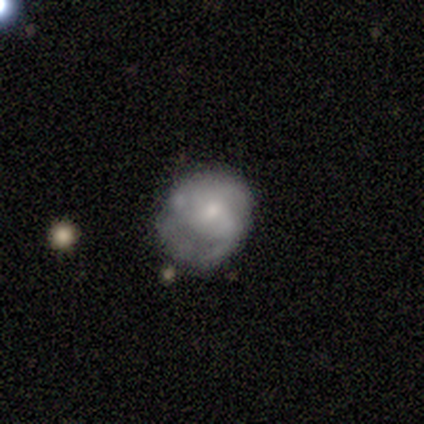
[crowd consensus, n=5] Smooth or featured? 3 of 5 (60%) said featured or disk. Edge-on disk? 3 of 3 (100%) said no. Bar? 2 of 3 (67%) said no. Spiral arms? 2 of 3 (67%) said yes. Spiral winding? 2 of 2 (100%) said loose. Spiral arm count? 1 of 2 (50%, tied with 2) said 1. Bulge size? 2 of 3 (67%) said moderate. Merging? 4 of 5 (80%) said none.